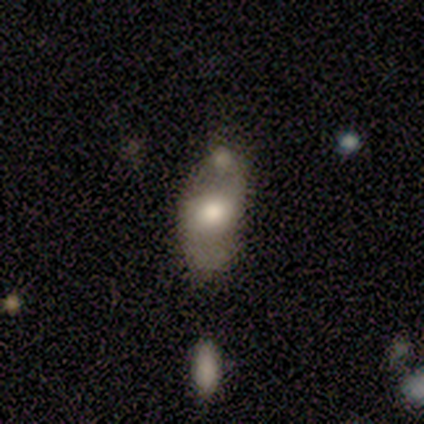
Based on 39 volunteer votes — Morphology: type=smooth (56%); roundness=in between (86%); merging=minor disturbance (32%).